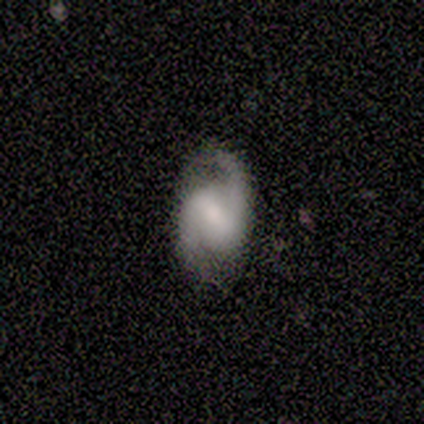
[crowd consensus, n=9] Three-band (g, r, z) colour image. It shows a featured or disk galaxy (89%) with a weak bar (50%), 2 (100%) medium (75%) spiral arms (100%) and a moderate central bulge (75%). Merging: none (78%).